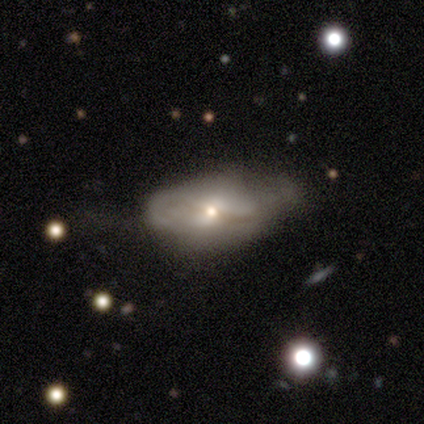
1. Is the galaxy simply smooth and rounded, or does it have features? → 80% featured or disk, 20% smooth, 0% star or artifact.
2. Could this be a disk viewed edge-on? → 100% no, 0% yes.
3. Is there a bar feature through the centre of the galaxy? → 75% weak, 25% no, 0% strong.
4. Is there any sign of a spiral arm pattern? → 50% yes (tied), 50% no (tied).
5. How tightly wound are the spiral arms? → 50% medium (tied), 50% loose (tied), 0% tight.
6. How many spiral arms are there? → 50% 2 (tied), 50% can't tell (tied), 0% 1, 0% 3, 0% 4, 0% more than 4.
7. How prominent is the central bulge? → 75% small, 25% dominant, 0% large, 0% moderate, 0% none.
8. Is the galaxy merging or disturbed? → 60% minor disturbance, 40% none, 0% major disturbance, 0% merger.